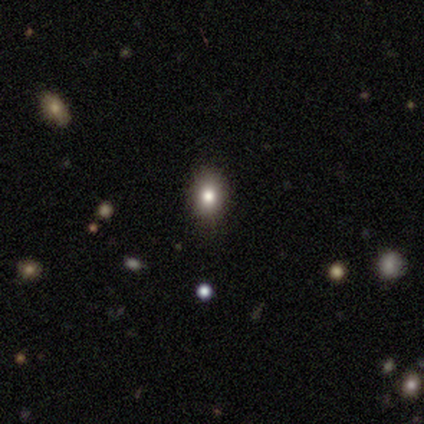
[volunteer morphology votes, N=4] Smooth or featured? smooth (50%, tied with star or artifact)
How rounded? round (50%, tied with in between)
Merging? none (50%, tied with minor disturbance)